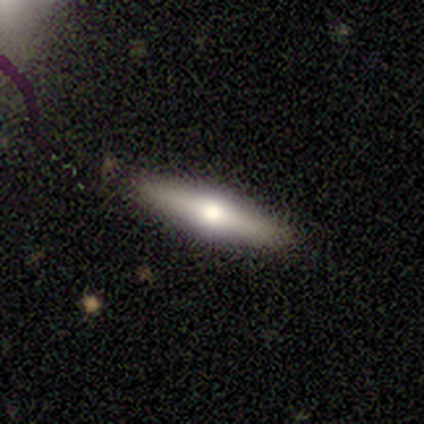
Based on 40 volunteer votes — A featured or disk galaxy (50%) viewed edge-on (95%) with a rounded central bulge (95%). Merging: none (78%).